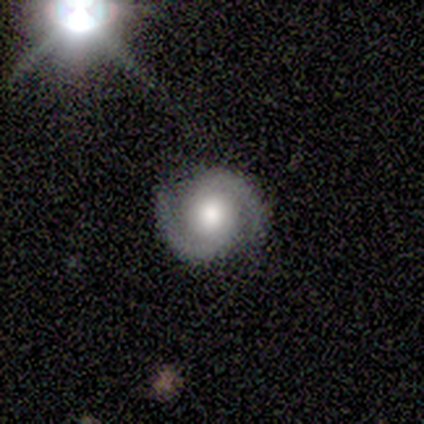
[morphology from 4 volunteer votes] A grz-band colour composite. It shows a featured or disk galaxy (100%) with no bar (50%), 2 (100%) tight (100%) spiral arms (100%) and a moderate central bulge (75%). Merging: none (100%).